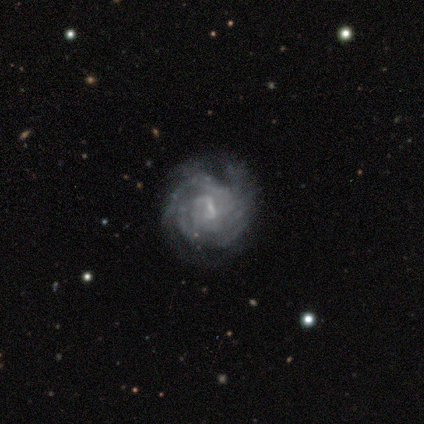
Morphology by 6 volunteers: Smooth or featured? featured or disk (100%)
Edge-on disk? no (100%)
Bar? weak (67%)
Spiral arms? yes (100%)
Spiral winding? tight (50%)
Spiral arm count? 4 (33%, tied with can't tell)
Bulge size? small (50%)
Merging? none (67%)